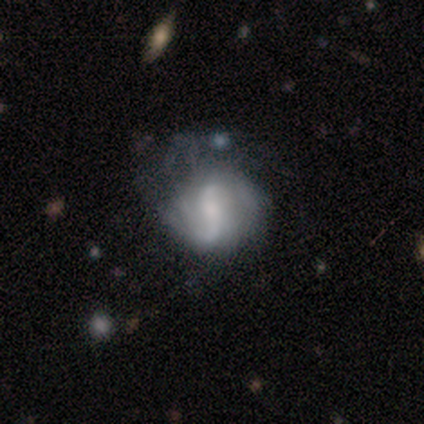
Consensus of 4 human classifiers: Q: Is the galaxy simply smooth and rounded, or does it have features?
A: featured or disk — 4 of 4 (100%).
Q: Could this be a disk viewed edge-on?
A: no — 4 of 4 (100%).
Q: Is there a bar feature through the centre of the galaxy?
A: weak — 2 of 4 (50%).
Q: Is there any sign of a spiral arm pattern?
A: yes — 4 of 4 (100%).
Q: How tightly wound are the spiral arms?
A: loose — 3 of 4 (75%).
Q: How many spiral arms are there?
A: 2 — 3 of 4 (75%).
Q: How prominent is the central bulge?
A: small — 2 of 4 (50%).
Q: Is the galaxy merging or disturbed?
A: none — 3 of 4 (75%).